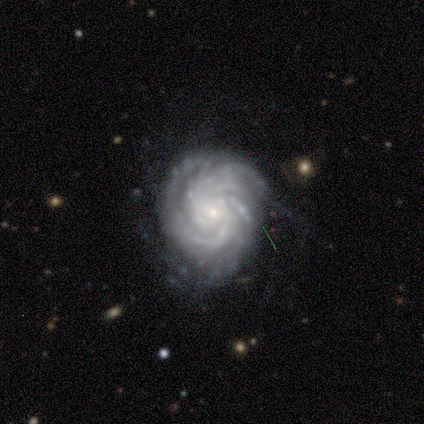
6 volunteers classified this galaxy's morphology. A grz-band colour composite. It shows a featured or disk galaxy (100%) with no bar (60%), more than 4 (80%) tight (100%) spiral arms (100%) and a small central bulge (60%). Merging: minor disturbance (67%).